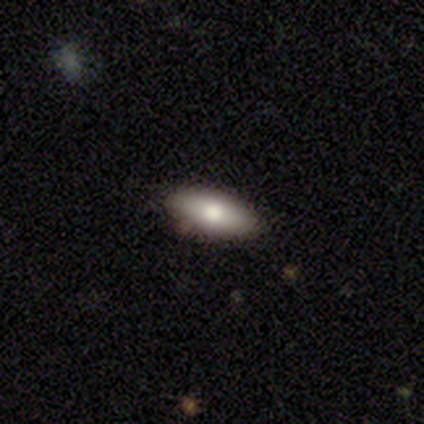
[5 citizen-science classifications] Smooth or featured? 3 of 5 (60%) said featured or disk. Edge-on disk? 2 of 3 (67%) said no. Bar? 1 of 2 (50%, tied with no) said weak. Spiral arms? 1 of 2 (50%, tied with no) said yes. Spiral winding? 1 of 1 (100%) said loose. Spiral arm count? 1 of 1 (100%) said 2. Bulge size? 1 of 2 (50%, tied with moderate) said large. Merging? 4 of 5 (80%) said none.